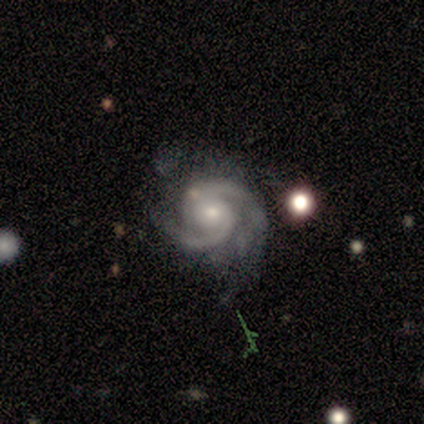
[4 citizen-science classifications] featured or disk 100%, smooth 0%, star or artifact 0%. Down the decision tree: edge-on disk — no (100%); bar — strong (50%); spiral arms — yes (100%); spiral arm count — 2 (100%); spiral winding — tight (50%, tied with medium); bulge size — small (75%); merging — none (75%).